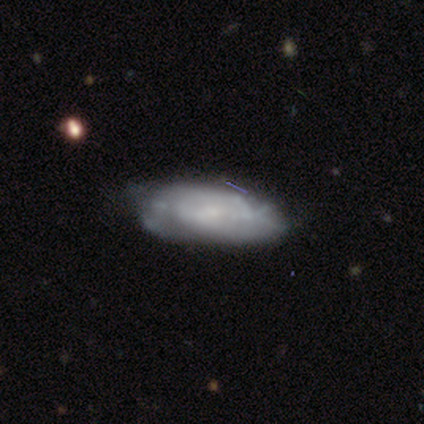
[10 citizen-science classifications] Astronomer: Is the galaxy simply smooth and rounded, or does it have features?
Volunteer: featured or disk — 60% (runner-up: smooth, 40%).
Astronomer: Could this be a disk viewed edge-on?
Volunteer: no — 83%.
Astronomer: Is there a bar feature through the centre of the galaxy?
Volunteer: no — 80%.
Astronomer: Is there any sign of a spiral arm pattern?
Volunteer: no — 60% (runner-up: yes, 40%).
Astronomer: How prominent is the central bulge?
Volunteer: none — 40% (runner-up: large, 20%).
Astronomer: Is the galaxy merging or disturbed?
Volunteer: none — 50% (runner-up: minor disturbance, 40%).